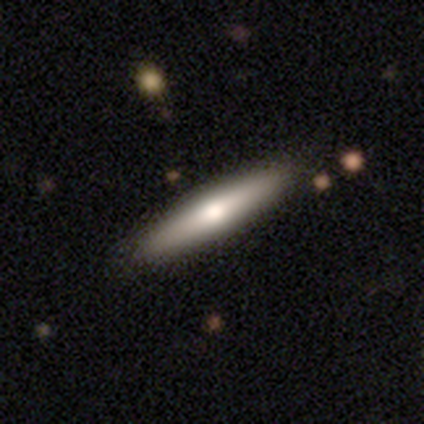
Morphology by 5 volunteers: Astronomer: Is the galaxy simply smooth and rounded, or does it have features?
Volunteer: featured or disk — 60% (runner-up: smooth, 40%).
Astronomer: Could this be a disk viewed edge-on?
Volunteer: yes — 67%.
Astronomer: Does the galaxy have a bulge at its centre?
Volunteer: boxy — 50%, tied with rounded at 50%.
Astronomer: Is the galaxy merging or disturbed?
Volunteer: none — 60%.